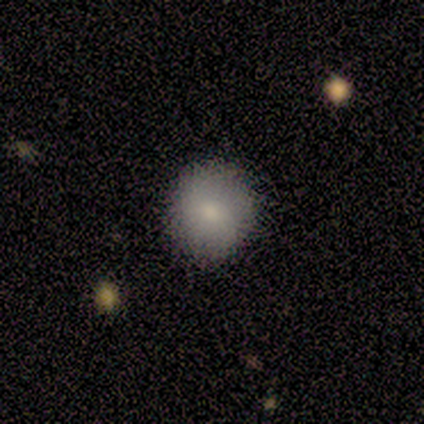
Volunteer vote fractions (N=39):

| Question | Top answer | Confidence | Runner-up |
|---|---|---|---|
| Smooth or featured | smooth | 87% | featured or disk (10%) |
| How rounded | round | 85% | in between (12%) |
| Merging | none | 100% | — |